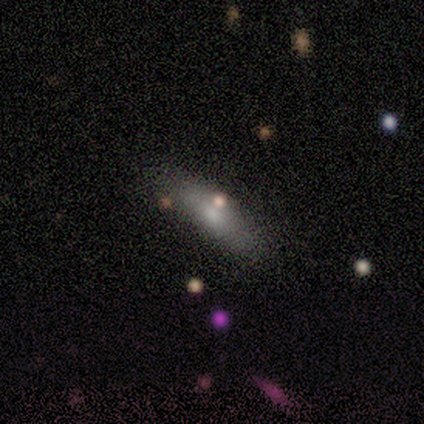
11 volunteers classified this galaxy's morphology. Smooth or featured: smooth — 82% (featured or disk — 18%)
How rounded: cigar-shaped — 78% (in between — 22%)
Merging: none — 82% (minor disturbance — 18%)